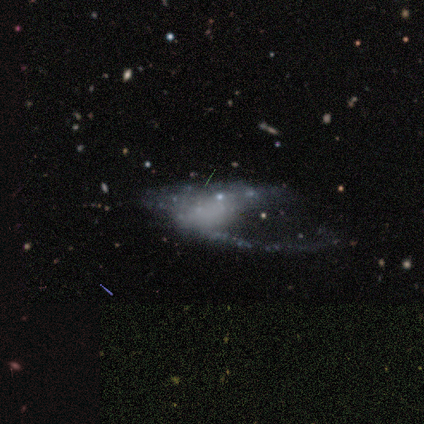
Smooth or featured? featured or disk (75%)
Edge-on disk? no (100%)
Bar? no (100%)
Spiral arms? no (67%)
Bulge size? none (67%)
Merging? major disturbance (75%)